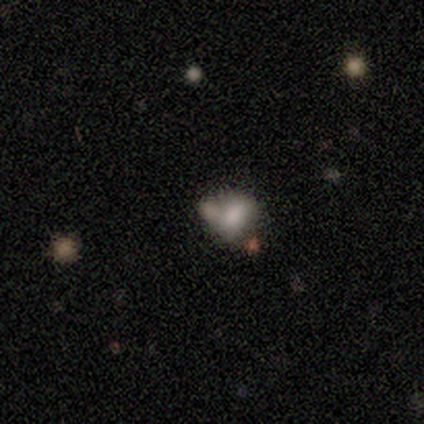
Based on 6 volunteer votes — This appears to be a smooth galaxy with no disk features (50%) that is round (67%). Merging: merger (60%).